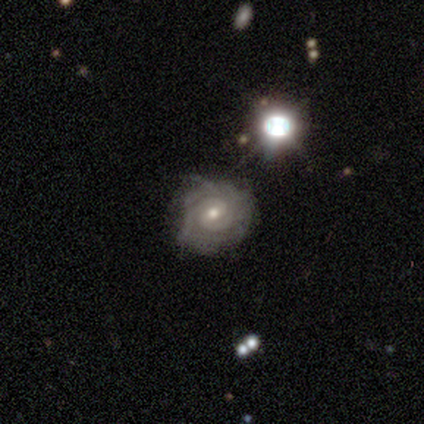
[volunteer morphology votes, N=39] Smooth or featured: featured or disk — 82% (smooth — 10%)
Edge-on disk: no — 91% (yes — 9%)
Bar: no — 59% (weak — 34%)
Spiral arms: yes — 86% (no — 14%)
Spiral winding: tight — 88% (medium — 12%)
Spiral arm count: 2 — 36% (can't tell — 32%)
Bulge size: small — 52% (moderate — 48%)
Merging: none — 64% (minor disturbance — 22%)